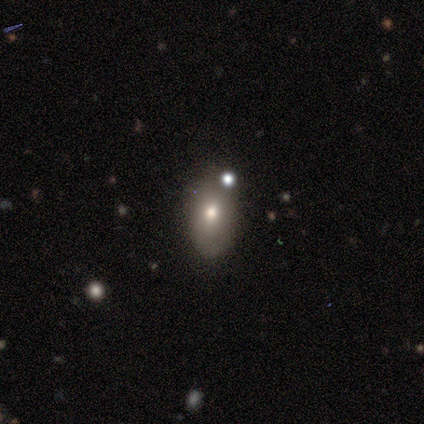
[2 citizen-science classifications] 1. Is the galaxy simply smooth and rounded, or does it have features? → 50% featured or disk (tied), 50% star or artifact (tied), 0% smooth.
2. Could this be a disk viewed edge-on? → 100% no, 0% yes.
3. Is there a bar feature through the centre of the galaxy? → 100% no, 0% strong, 0% weak.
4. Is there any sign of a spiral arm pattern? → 100% no, 0% yes.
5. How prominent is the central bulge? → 100% moderate, 0% dominant, 0% large, 0% small, 0% none.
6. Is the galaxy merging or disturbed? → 100% none, 0% minor disturbance, 0% major disturbance, 0% merger.